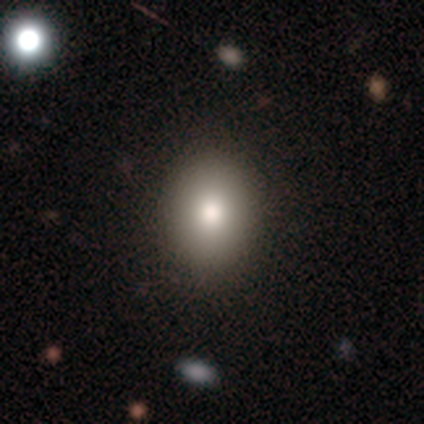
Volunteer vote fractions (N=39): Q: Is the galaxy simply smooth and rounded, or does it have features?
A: smooth — 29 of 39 (74%).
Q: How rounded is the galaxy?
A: in between — 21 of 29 (72%).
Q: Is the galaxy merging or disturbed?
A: none — 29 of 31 (94%).